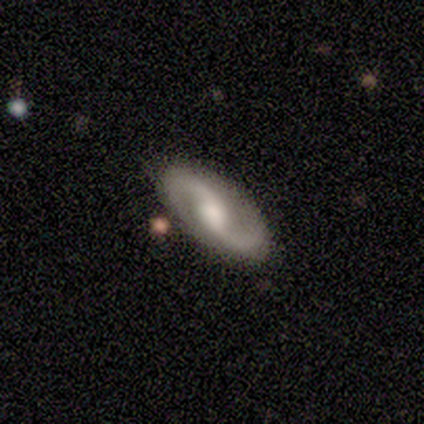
Morphology: type=featured or disk (100%); edge-on=no (100%); bar=weak (60%); spiral arms=yes (100%); winding=loose (80%); arm count=2 (100%); bulge=moderate (40%); merging=none (80%).